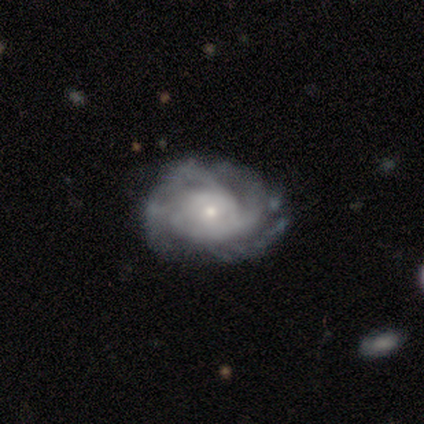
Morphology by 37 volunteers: type=featured or disk (86%); edge-on=no (100%); bar=no (88%); spiral arms=yes (94%); winding=tight (67%); arm count=can't tell (40%); bulge=small (62%); merging=none (75%).